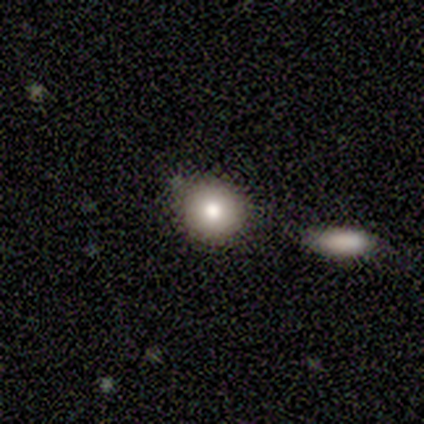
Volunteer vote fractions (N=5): Smooth or featured?
  - smooth: 80% *
  - star or artifact: 20%
  - featured or disk: 0%
How rounded?
  - round: 100% *
  - in between: 0%
  - cigar-shaped: 0%
Merging?
  - none: 100% *
  - minor disturbance: 0%
  - major disturbance: 0%
  - merger: 0%